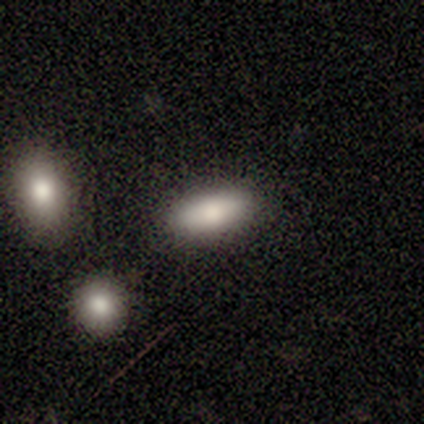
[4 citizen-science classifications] Smooth or featured? smooth (100%)
How rounded? in between (100%)
Merging? none (100%)